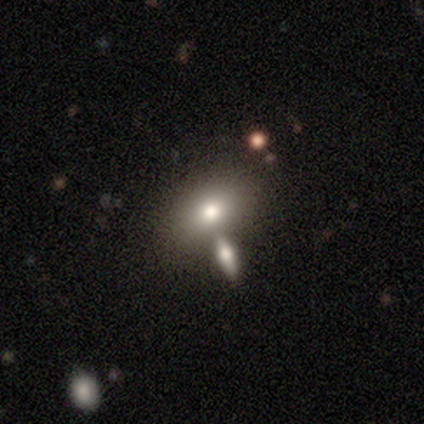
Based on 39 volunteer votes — Volunteers were most divided on "merging": none: 51%, merger: 30%, minor disturbance: 11%, major disturbance: 8%. More confident: how rounded — in between (97%); smooth or featured — smooth (74%).